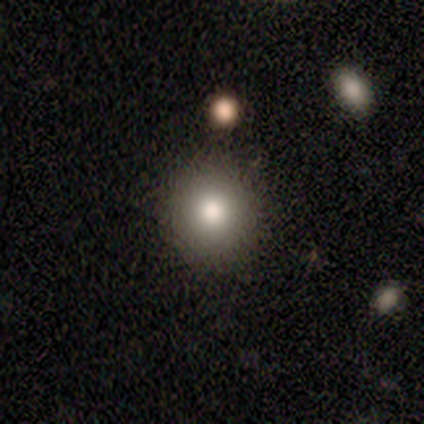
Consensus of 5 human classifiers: smooth_or_featured: smooth (p=0.80) [alt: featured or disk p=0.20]
how_rounded: round (p=1.00)
merging: none (p=1.00)